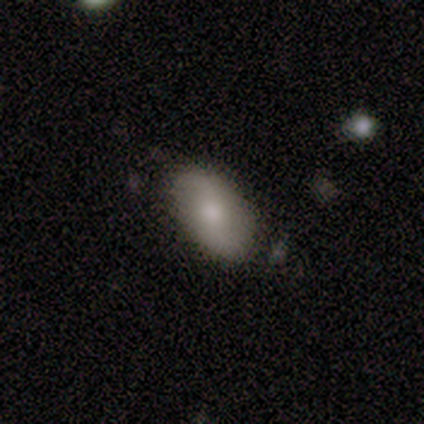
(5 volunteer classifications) Morphology: type=smooth (40%, tied with featured or disk); roundness=in between (100%); merging=none (100%).